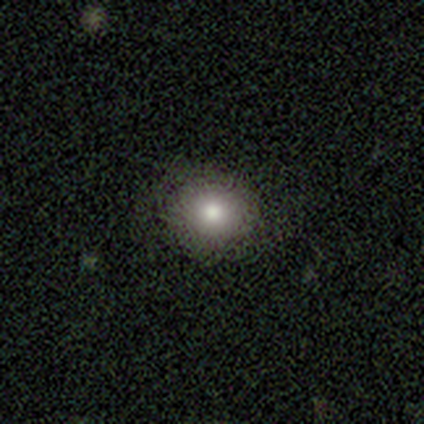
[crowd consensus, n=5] Q: Smooth or featured?
A: smooth (80%); runner-up: star or artifact (20%)
Q: How rounded?
A: round (75%); runner-up: in between (25%)
Q: Merging?
A: none (100%)